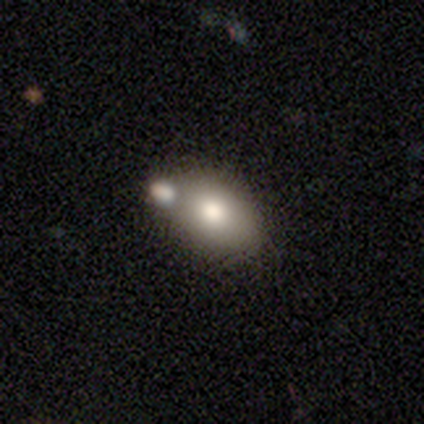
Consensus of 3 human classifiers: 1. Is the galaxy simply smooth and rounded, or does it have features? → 100% smooth, 0% featured or disk, 0% star or artifact.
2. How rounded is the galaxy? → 100% in between, 0% round, 0% cigar-shaped.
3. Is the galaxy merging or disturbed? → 67% merger, 33% none, 0% minor disturbance, 0% major disturbance.